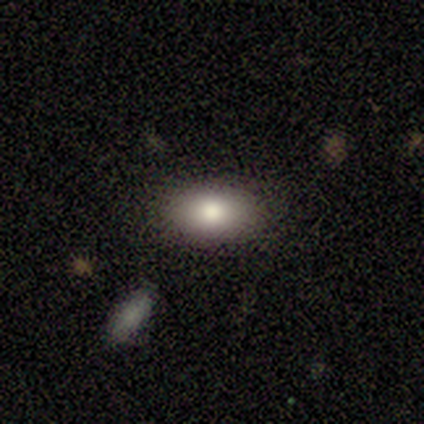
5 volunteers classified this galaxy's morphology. A smooth galaxy with no disk features (80%) that is in between round and cigar-shaped (75%). Merging: none (100%).